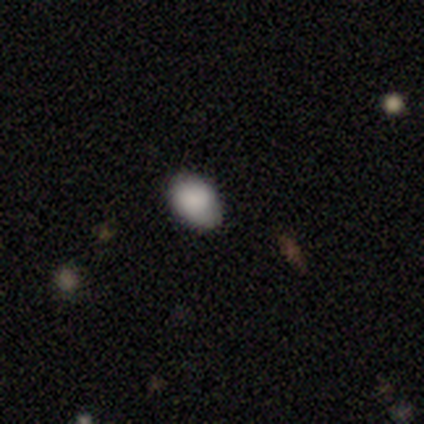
This appears to be a smooth galaxy with no disk features (80%) that is in between round and cigar-shaped (100%). Merging: none (60%).